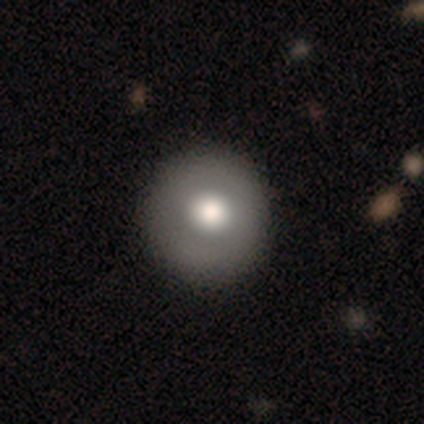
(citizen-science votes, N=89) Morphology: type=smooth (65%); roundness=round (98%); merging=none (93%).